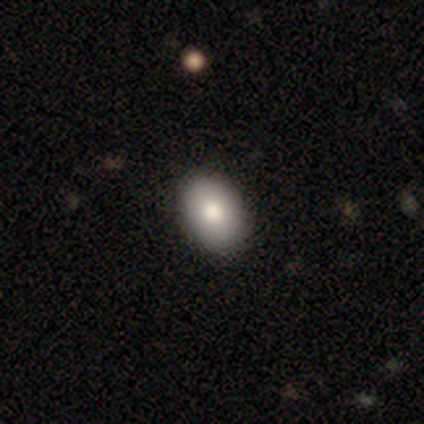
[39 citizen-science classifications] smooth-or-featured: smooth: 97% | featured or disk: 3% | star or artifact: 0%
  how-rounded: in between: 79% | round: 21% | cigar-shaped: 0%
  merging: none: 67% | minor disturbance: 3% | merger: 3% | major disturbance: 0%